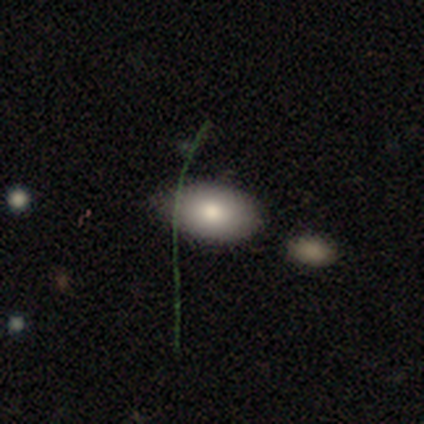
Overall: smooth (100%). How rounded: in between (100%). Merging: none (60%; minor disturbance 20%).